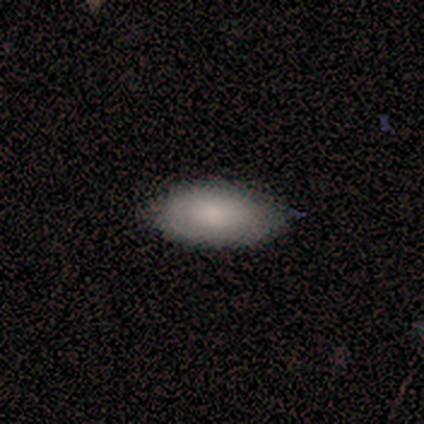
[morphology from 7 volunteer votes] Volunteers were most divided on "merging": none: 71%, minor disturbance: 14%, merger: 14%, major disturbance: 0%. More confident: how rounded — in between (100%); smooth or featured — smooth (86%).